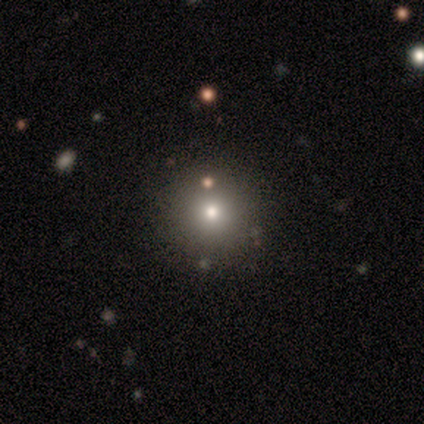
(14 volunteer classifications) Overall: smooth (71%). How rounded: round (100%). Merging: none (92%).